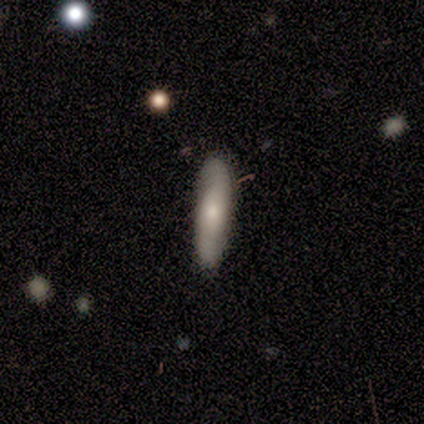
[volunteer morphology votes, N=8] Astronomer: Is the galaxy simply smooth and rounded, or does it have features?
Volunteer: featured or disk — 50% (runner-up: smooth, 38%).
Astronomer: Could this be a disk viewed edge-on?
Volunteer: no — 100%.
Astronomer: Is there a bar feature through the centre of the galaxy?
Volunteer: no — 75%.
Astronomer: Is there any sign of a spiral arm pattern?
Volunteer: yes — 75%.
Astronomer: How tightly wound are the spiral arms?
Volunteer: tight — 33%, tied with medium and loose at 33%.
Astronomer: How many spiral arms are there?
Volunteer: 2 — 100%.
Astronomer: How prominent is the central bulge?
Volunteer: small — 75%.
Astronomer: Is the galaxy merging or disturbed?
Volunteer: none — 86%.